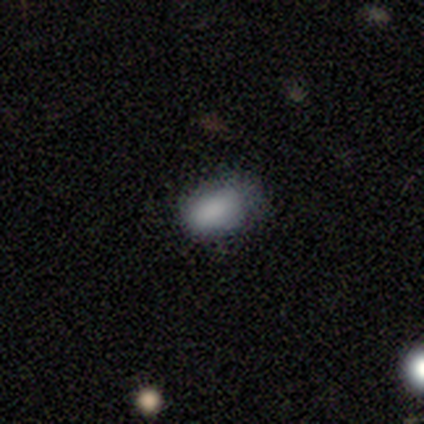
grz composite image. It shows a smooth galaxy with no disk features (100%) that is in between round and cigar-shaped (80%). Merging: none (60%).